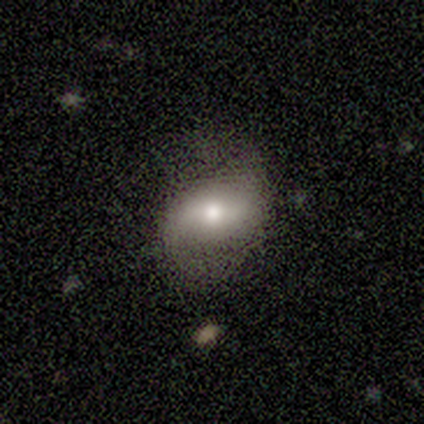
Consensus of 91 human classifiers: This is possibly a featured or disk galaxy (58%). It is clearly not viewed edge-on (94%). Bar: marginally strong (42%). Spiral arm pattern: clearly yes (86%). Spiral arm count: clearly 2 (93%). Spiral winding: likely loose (77%). Central bulge: possibly moderate (56%). Merging: likely none (71%).